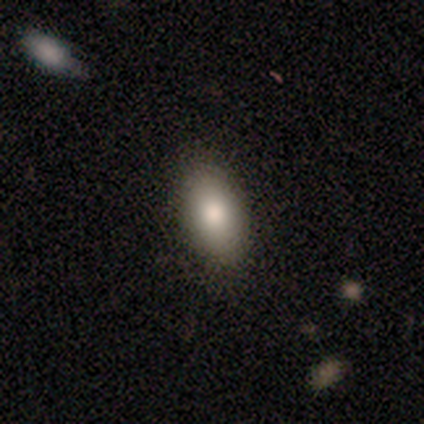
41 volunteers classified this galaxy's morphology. A smooth galaxy with no disk features (83%) that is in between round and cigar-shaped (91%). Merging: none (92%).